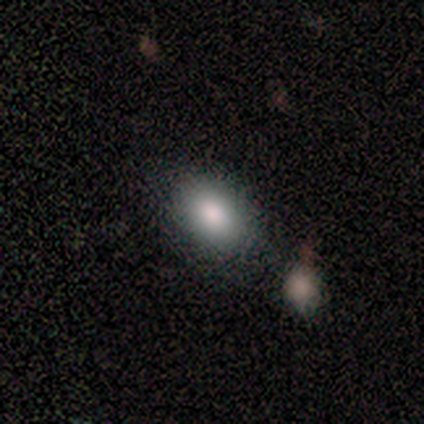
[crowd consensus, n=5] Volunteers were most divided on "merging": none: 50%, minor disturbance: 25%, merger: 25%, major disturbance: 0%. More confident: how rounded — in between (100%); smooth or featured — smooth (80%).